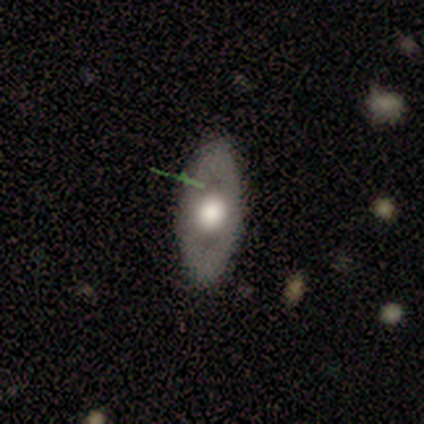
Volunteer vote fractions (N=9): Smooth or featured?
  - smooth: 56% *
  - featured or disk: 44%
  - star or artifact: 0%
How rounded?
  - in between: 60% *
  - round: 40%
  - cigar-shaped: 0%
Merging?
  - none: 89% *
  - minor disturbance: 11%
  - major disturbance: 0%
  - merger: 0%